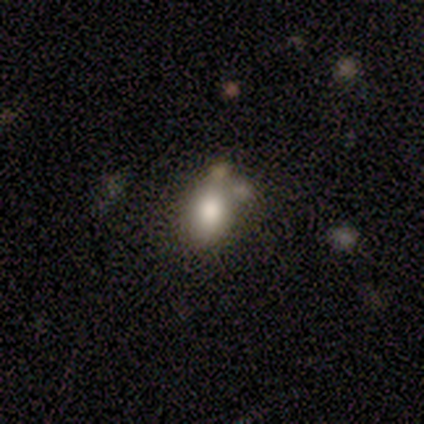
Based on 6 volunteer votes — Smooth or featured: smooth — 100%
How rounded: in between — 83% (round — 17%)
Merging: none — 67% (minor disturbance — 17%)